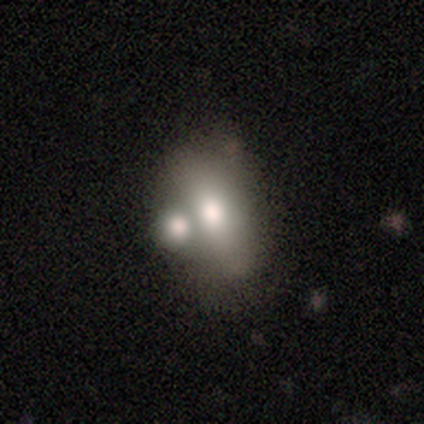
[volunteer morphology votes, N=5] This is likely a featured or disk galaxy (60%). It is likely not viewed edge-on (67%). Bar: clearly no (100%). Spiral arm pattern: clearly no (100%). Central bulge: possibly dominant (50%, tied with moderate). Merging: likely merger (60%).